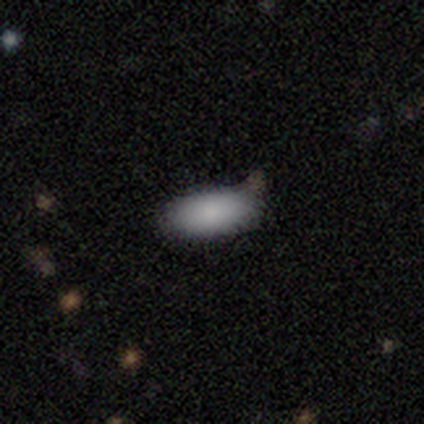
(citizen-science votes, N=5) Smooth or featured?
  - smooth: 80% *
  - featured or disk: 20%
  - star or artifact: 0%
How rounded?
  - in between: 100% *
  - round: 0%
  - cigar-shaped: 0%
Merging?
  - none: 80% *
  - minor disturbance: 20%
  - major disturbance: 0%
  - merger: 0%